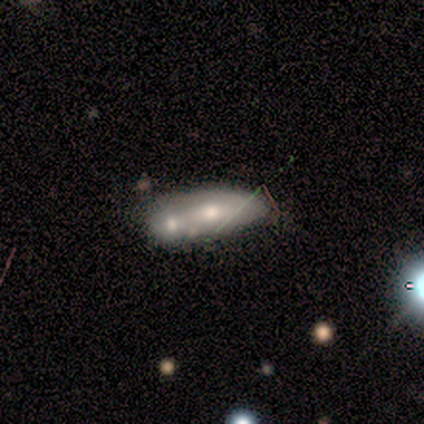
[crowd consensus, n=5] A smooth galaxy with no disk features (60%) that is in between round and cigar-shaped (100%). Merging: merger (80%).